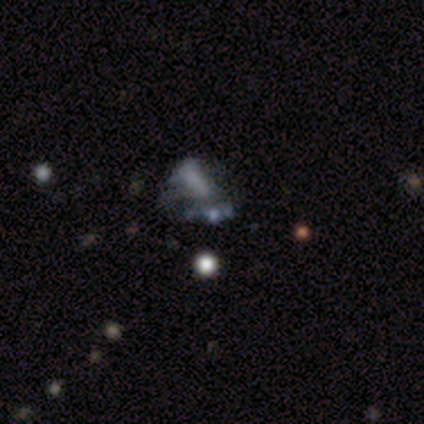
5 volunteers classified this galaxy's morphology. This is likely a featured or disk galaxy (60%). It is clearly not viewed edge-on (100%). Bar: clearly no (100%). Spiral arm pattern: clearly no (100%). Central bulge: clearly none (100%). Merging: likely none (60%).